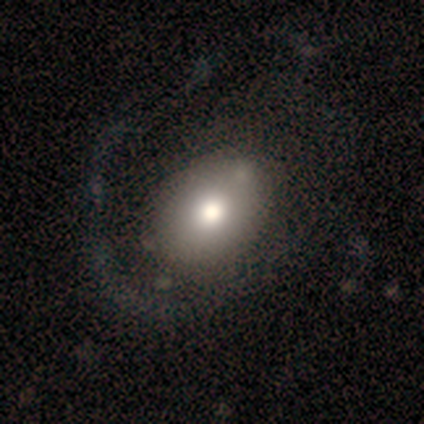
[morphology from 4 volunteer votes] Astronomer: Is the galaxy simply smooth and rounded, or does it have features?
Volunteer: smooth — 75%.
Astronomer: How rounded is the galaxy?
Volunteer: in between — 67%.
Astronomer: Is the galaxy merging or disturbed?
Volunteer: none — 67%.